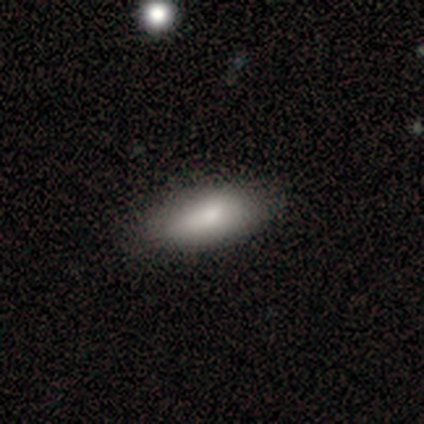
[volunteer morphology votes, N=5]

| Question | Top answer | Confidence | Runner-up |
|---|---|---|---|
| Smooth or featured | smooth | 80% | star or artifact (20%) |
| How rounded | in between | 100% | — |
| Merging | none | 75% | minor disturbance (25%) |